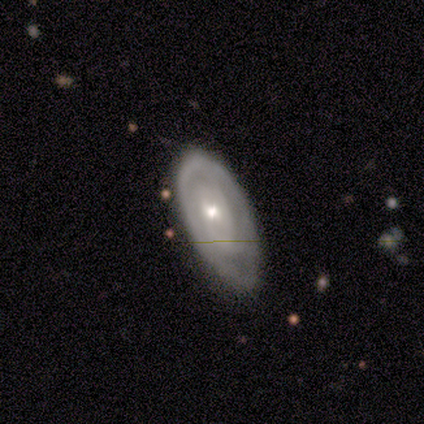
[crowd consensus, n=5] smooth 60%, featured or disk 40%, star or artifact 0%. Down the decision tree: how rounded — in between (100%); merging — minor disturbance (80%).